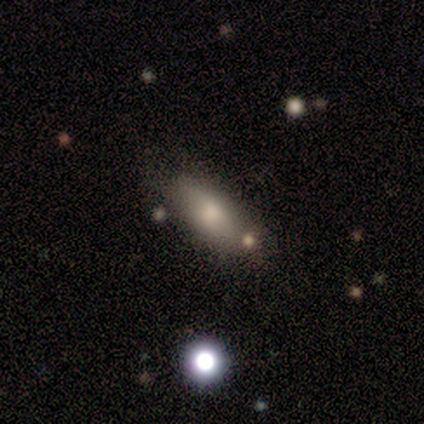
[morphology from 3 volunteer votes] type=smooth (33%, tied with featured or disk and star or artifact); roundness=in between (100%); merging=none (100%).